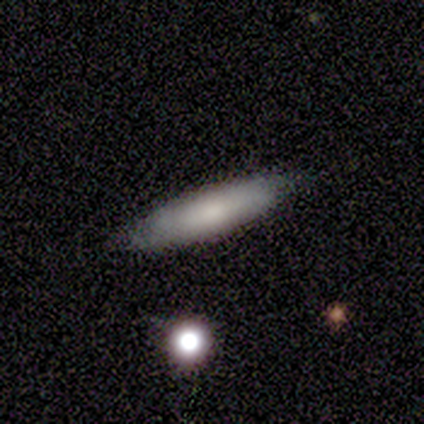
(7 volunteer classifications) Volunteers were most divided on "smooth or featured": smooth: 71%, featured or disk: 29%, star or artifact: 0%. More confident: merging — none (100%); how rounded — cigar-shaped (80%).